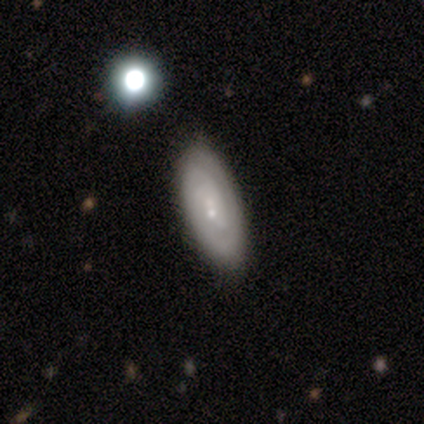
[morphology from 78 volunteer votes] Q: Smooth or featured?
A: featured or disk (72%); runner-up: smooth (24%)
Q: Edge-on disk?
A: no (95%); runner-up: yes (5%)
Q: Bar?
A: no (66%); runner-up: weak (34%)
Q: Spiral arms?
A: yes (87%); runner-up: no (13%)
Q: Spiral winding?
A: tight (70%); runner-up: medium (22%)
Q: Spiral arm count?
A: can't tell (33%); runner-up: 2 (28%)
Q: Bulge size?
A: small (91%); runner-up: moderate (9%)
Q: Merging?
A: none (84%); runner-up: minor disturbance (9%)